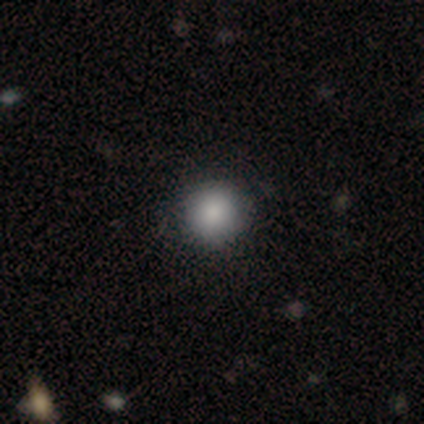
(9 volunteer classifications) Smooth or featured? smooth (78%)
How rounded? round (100%)
Merging? none (100%)